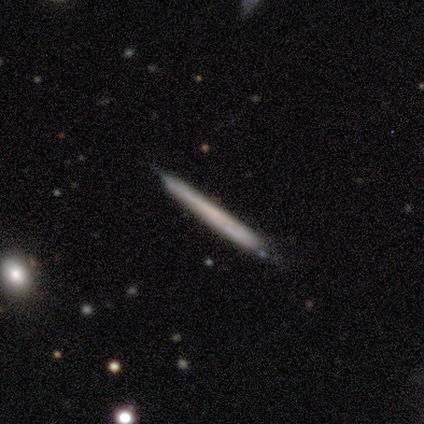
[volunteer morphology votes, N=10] Smooth or featured: smooth — 60% (featured or disk — 40%)
How rounded: cigar-shaped — 100%
Merging: none — 90% (minor disturbance — 10%)